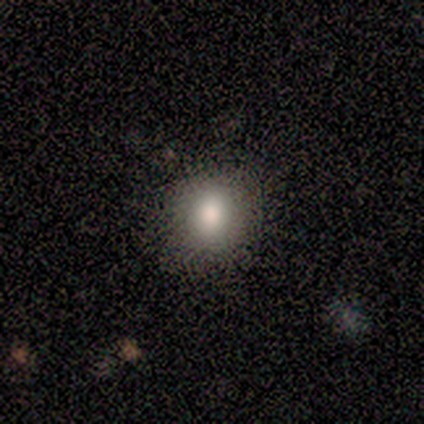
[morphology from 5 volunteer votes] smooth-or-featured: smooth: 80% | star or artifact: 20% | featured or disk: 0%
  how-rounded: round: 75% | in between: 25% | cigar-shaped: 0%
  merging: none: 100% | minor disturbance: 0% | major disturbance: 0% | merger: 0%